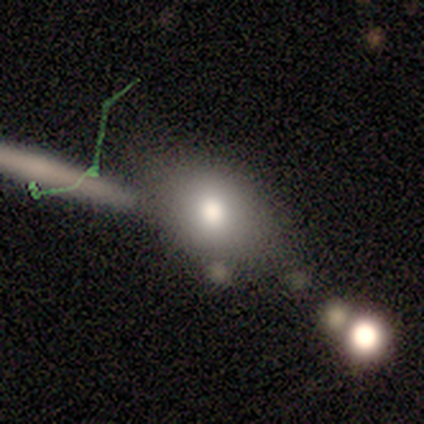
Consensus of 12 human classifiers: Smooth or featured: smooth — 58% (featured or disk — 33%)
How rounded: in between — 57% (round — 43%)
Merging: none — 64% (minor disturbance — 18%)